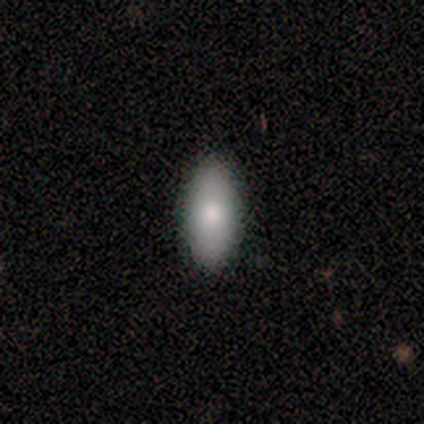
Smooth or featured? smooth (100%)
How rounded? in between (80%)
Merging? none (80%)